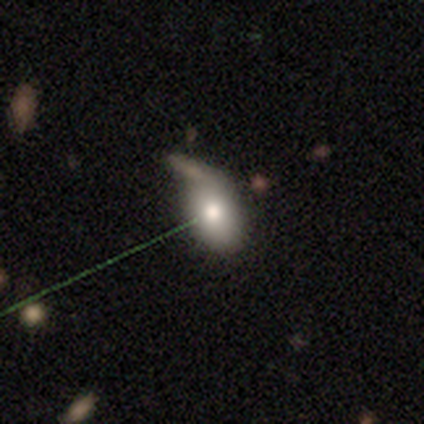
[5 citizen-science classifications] This is marginally a smooth galaxy (40%, tied with star or artifact). How rounded: possibly round (50%, tied with in between). Merging: likely none (67%).